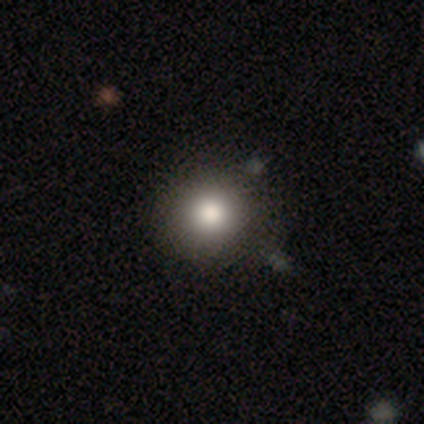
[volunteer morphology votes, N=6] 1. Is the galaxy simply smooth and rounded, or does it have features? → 83% smooth, 17% featured or disk, 0% star or artifact.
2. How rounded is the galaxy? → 80% round, 20% in between, 0% cigar-shaped.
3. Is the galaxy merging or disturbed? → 50% minor disturbance, 33% none, 17% major disturbance, 0% merger.